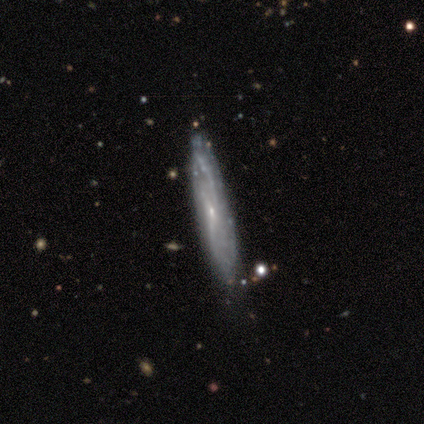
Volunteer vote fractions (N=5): Smooth or featured: smooth — 60% (featured or disk — 40%)
How rounded: cigar-shaped — 67% (in between — 33%)
Merging: none — 80% (minor disturbance — 20%)